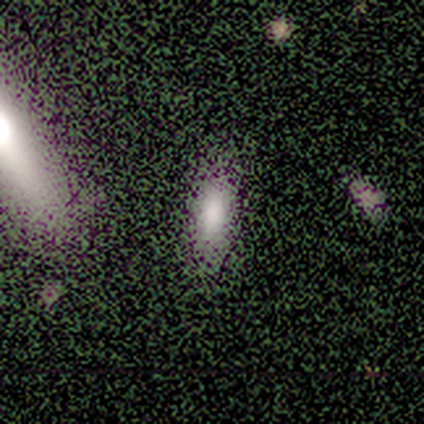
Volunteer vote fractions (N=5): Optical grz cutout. It shows a smooth galaxy with no disk features (80%) that is in between round and cigar-shaped (75%). Merging: minor disturbance (50%).